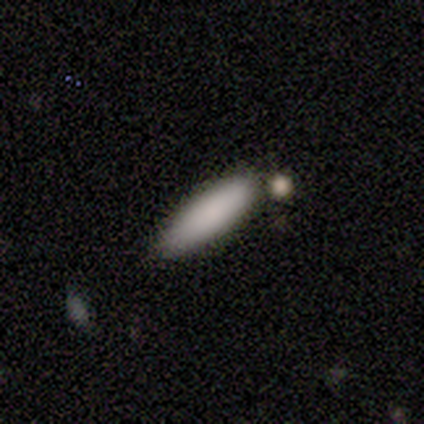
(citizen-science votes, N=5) Smooth or featured? smooth (100%)
How rounded? cigar-shaped (100%)
Merging? none (100%)